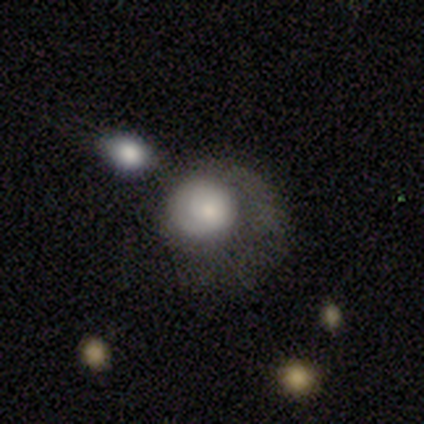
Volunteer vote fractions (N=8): Smooth or featured? 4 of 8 (50%, tied with featured or disk) said smooth. How rounded? 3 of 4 (75%) said round. Merging? 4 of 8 (50%) said major disturbance.